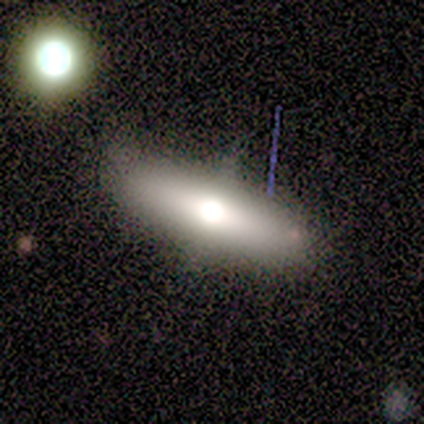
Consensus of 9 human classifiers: A featured or disk galaxy (44%) viewed edge-on (100%) with a rounded central bulge (75%).

Vote fractions:
- Smooth or featured? featured or disk: 44% / smooth: 33% / star or artifact: 22%
- Edge-on disk? yes: 100% / no: 0%
- Edge-on bulge? rounded: 75% / none: 25% / boxy: 0%
- Merging? none: 86% / merger: 14% / minor disturbance: 0% / major disturbance: 0%